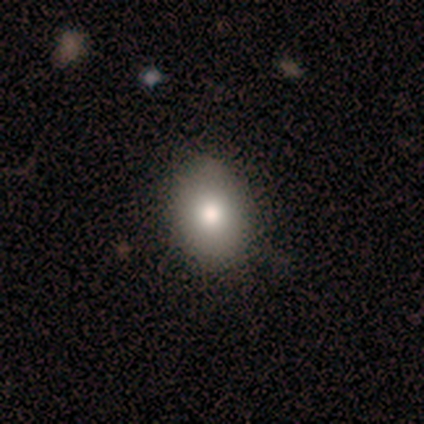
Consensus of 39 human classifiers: A smooth galaxy with no disk features (90%) that is in between round and cigar-shaped (71%).

Vote fractions:
- Smooth or featured? smooth: 90% / featured or disk: 5% / star or artifact: 5%
- How rounded? in between: 71% / round: 29% / cigar-shaped: 0%
- Merging? none: 59% / minor disturbance: 3% / merger: 3% / major disturbance: 0%